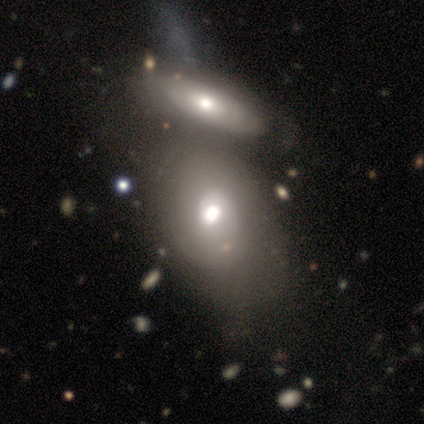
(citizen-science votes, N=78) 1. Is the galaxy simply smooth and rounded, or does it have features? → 53% featured or disk, 41% smooth, 6% star or artifact.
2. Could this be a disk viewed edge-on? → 93% no, 7% yes.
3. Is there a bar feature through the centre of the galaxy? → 92% no, 8% weak, 0% strong.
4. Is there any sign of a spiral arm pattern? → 63% yes, 37% no.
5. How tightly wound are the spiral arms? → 54% tight, 25% medium, 21% loose.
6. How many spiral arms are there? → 62% 1, 21% can't tell, 12% 2, 4% more than 4, 0% 3, 0% 4.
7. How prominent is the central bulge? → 74% moderate, 13% large, 11% dominant, 3% small, 0% none.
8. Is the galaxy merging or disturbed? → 71% merger, 7% none, 5% minor disturbance, 1% major disturbance.